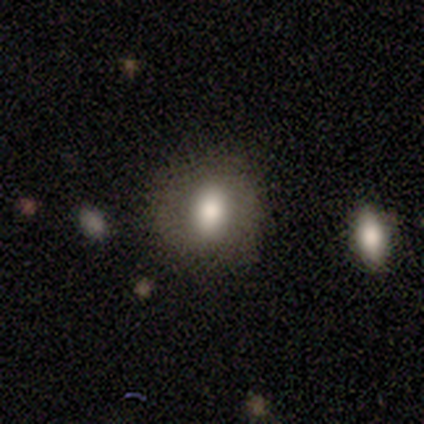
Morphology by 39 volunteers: type=smooth (69%); roundness=in between (56%); merging=none (91%).